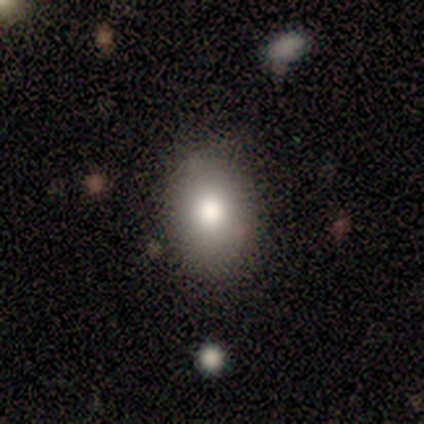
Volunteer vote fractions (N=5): smooth_or_featured: smooth (p=0.80) [alt: star or artifact p=0.20]
how_rounded: in between (p=1.00)
merging: none (p=0.75) [alt: minor disturbance p=0.25]